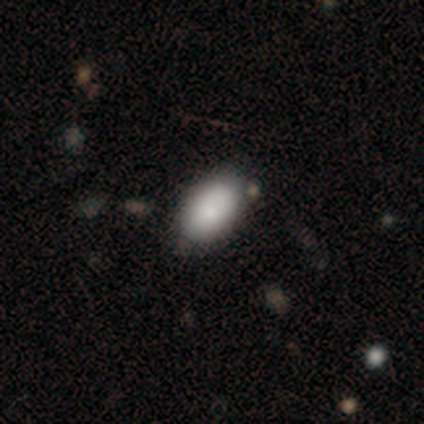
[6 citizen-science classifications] Volunteers were most divided on "smooth or featured": smooth: 83%, star or artifact: 17%, featured or disk: 0%. More confident: how rounded — in between (100%); merging — none (100%).